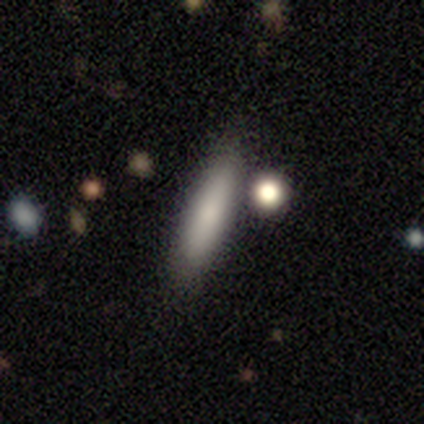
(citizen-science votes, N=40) A smooth galaxy with no disk features (90%) that is cigar-shaped (75%). Merging: none (72%).